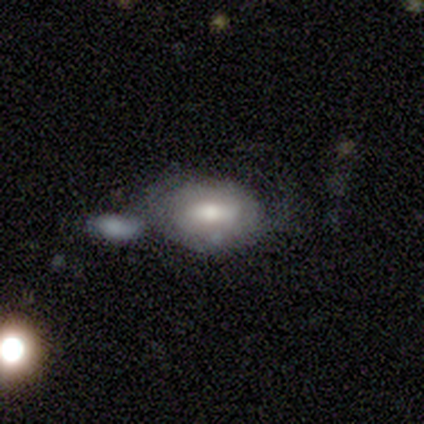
Smooth or featured? 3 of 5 (60%) said smooth. How rounded? 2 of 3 (67%) said in between. Merging? 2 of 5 (40%, tied with minor disturbance) said none.